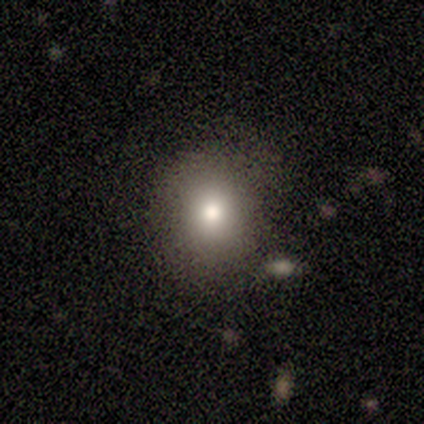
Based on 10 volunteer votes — Volunteers were most divided on "how rounded": round: 62%, in between: 38%, cigar-shaped: 0%. More confident: merging — none (89%); smooth or featured — smooth (80%).